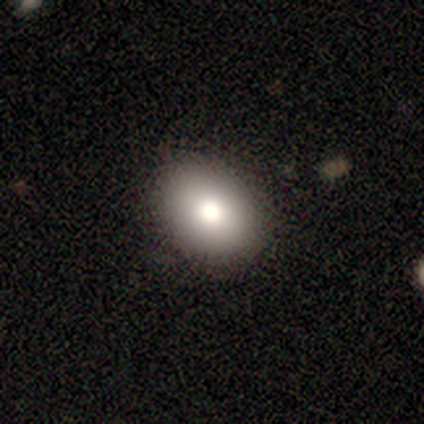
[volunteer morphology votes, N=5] smooth 60%, featured or disk 20%, star or artifact 20%. Down the decision tree: how rounded — in between (100%); merging — none (100%).